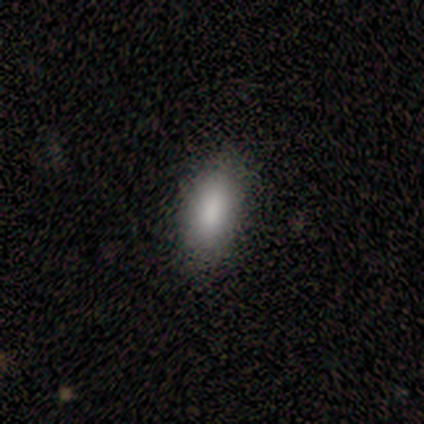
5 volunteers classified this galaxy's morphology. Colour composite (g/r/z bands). It shows a smooth galaxy with no disk features (80%) that is in between round and cigar-shaped (75%). Merging: none (100%).